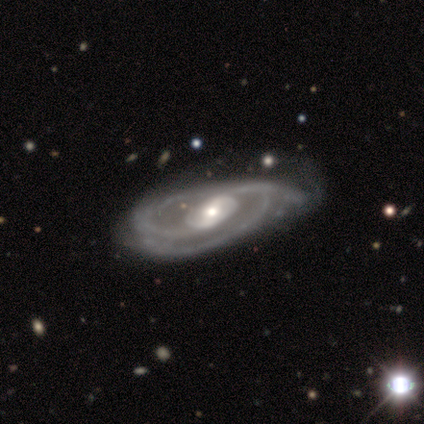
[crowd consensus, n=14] featured or disk 86%, smooth 14%, star or artifact 0%. Down the decision tree: edge-on disk — no (100%); bar — weak (42%); spiral arms — yes (100%); spiral arm count — 2 (58%); spiral winding — medium (50%); bulge size — moderate (75%); merging — minor disturbance (43%).